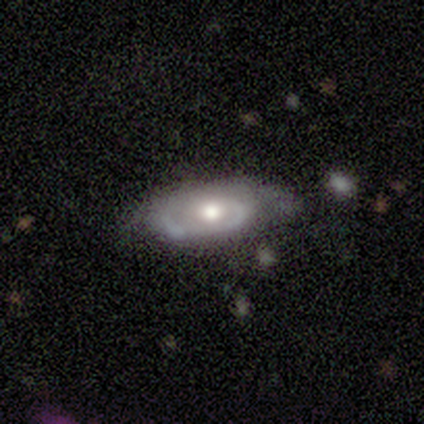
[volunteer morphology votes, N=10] featured or disk 70%, smooth 30%, star or artifact 0%. Down the decision tree: edge-on disk — no (100%); bar — no (57%); spiral arms — yes (100%); spiral arm count — 1 (43%, tied with can't tell); spiral winding — tight (57%); bulge size — moderate (71%); merging — none (70%).